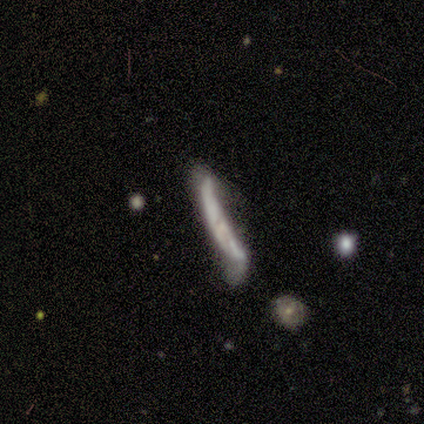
This is possibly a featured or disk galaxy (50%). It is possibly viewed edge-on (58%). Edge-on bulge: clearly none (100%). Merging: possibly none (48%).